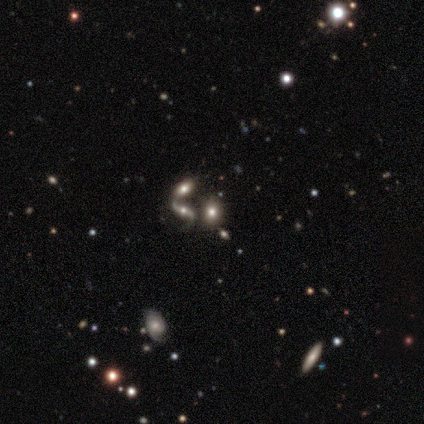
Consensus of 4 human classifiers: Q: Smooth or featured?
A: featured or disk (50%); runner-up: smooth (25%)
Q: Edge-on disk?
A: no (100%)
Q: Bar?
A: no (100%)
Q: Spiral arms?
A: yes (100%)
Q: Spiral winding?
A: tight (50%); tied with: loose (50%)
Q: Spiral arm count?
A: 2 (100%)
Q: Bulge size?
A: small (50%); tied with: none (50%)
Q: Merging?
A: merger (67%); runner-up: none (33%)